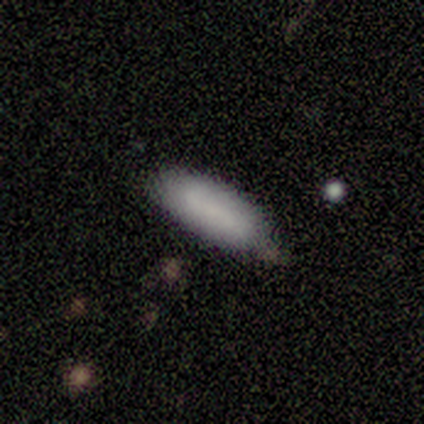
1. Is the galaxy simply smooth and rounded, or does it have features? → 80% smooth, 20% star or artifact, 0% featured or disk.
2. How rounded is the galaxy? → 50% in between (tied), 50% cigar-shaped (tied), 0% round.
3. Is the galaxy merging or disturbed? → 50% none (tied), 50% minor disturbance (tied), 0% major disturbance, 0% merger.